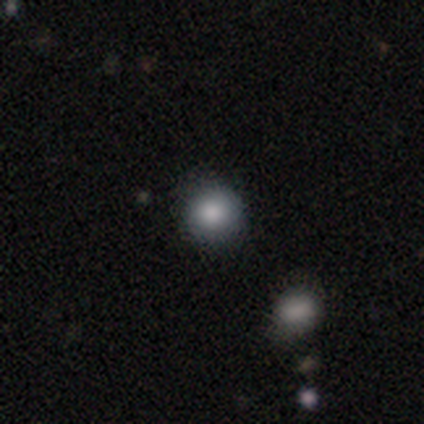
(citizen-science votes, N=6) smooth_or_featured: smooth (p=0.83) [alt: star or artifact p=0.17]
how_rounded: round (p=1.00)
merging: none (p=1.00)